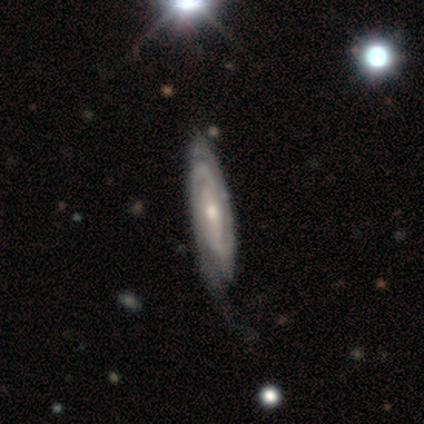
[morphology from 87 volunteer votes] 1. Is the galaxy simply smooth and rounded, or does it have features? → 87% featured or disk, 11% smooth, 1% star or artifact.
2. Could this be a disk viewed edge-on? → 83% no, 17% yes.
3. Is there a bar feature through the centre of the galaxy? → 38% no, 32% weak, 30% strong.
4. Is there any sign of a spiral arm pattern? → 97% yes, 3% no.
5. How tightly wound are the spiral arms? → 77% tight, 18% medium, 5% loose.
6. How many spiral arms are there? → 62% 2, 25% can't tell, 8% 3, 5% 4, 0% 1, 0% more than 4.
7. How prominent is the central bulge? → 48% small, 43% moderate, 6% none, 2% dominant, 2% large.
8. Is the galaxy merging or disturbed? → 58% none, 30% minor disturbance, 12% major disturbance, 0% merger.